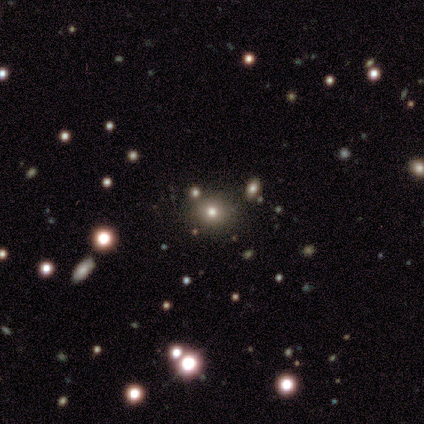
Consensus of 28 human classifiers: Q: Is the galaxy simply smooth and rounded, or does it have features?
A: smooth — 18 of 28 (64%).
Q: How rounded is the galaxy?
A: round — 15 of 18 (83%).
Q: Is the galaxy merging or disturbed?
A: none — 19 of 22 (86%).